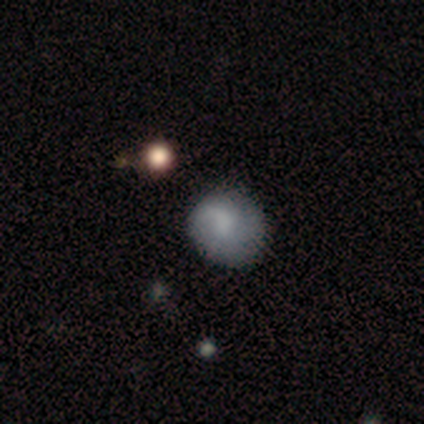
Smooth or featured? 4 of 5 (80%) said smooth. How rounded? 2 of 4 (50%, tied with in between) said round. Merging? 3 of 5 (60%) said minor disturbance.